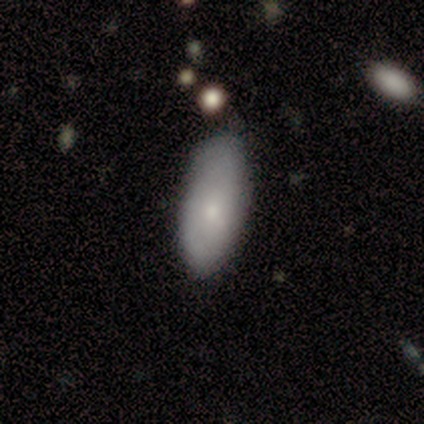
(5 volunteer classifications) Q: Smooth or featured?
A: smooth (60%); runner-up: featured or disk (20%)
Q: How rounded?
A: in between (100%)
Q: Merging?
A: none (100%)